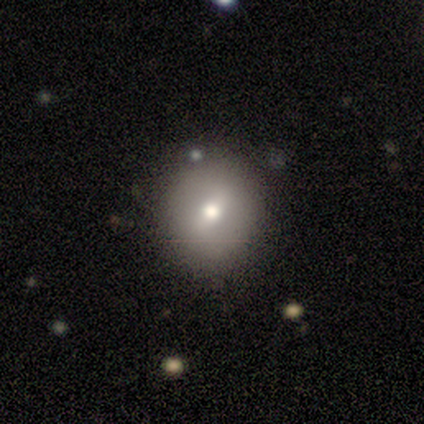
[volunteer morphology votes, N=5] Smooth or featured? smooth (60%)
How rounded? round (100%)
Merging? none (100%)